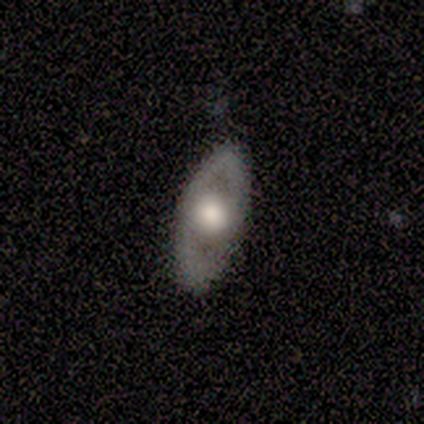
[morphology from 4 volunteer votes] Smooth or featured? 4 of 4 (100%) said featured or disk. Edge-on disk? 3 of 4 (75%) said no. Bar? 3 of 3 (100%) said no. Spiral arms? 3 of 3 (100%) said no. Bulge size? 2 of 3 (67%) said moderate. Merging? 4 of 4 (100%) said none.